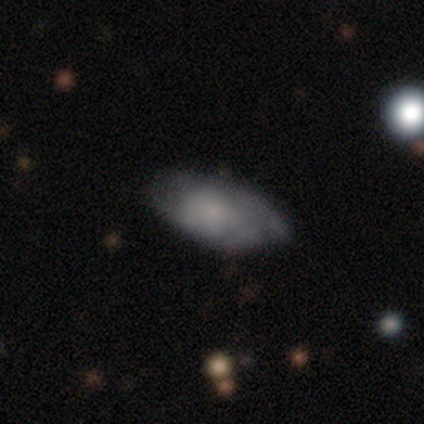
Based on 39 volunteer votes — Smooth or featured? 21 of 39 (54%) said smooth. How rounded? 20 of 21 (95%) said in between. Merging? 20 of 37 (54%) said none.